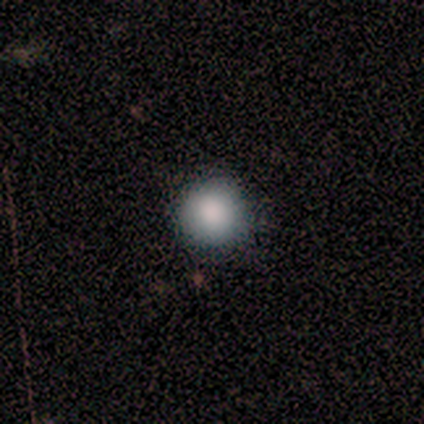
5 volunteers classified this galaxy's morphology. Q: Smooth or featured?
A: smooth (80%); runner-up: star or artifact (20%)
Q: How rounded?
A: round (100%)
Q: Merging?
A: none (100%)